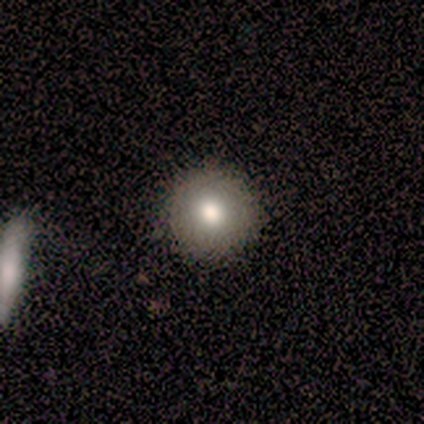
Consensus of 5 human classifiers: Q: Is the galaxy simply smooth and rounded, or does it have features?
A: smooth — 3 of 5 (60%).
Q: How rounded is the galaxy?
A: round — 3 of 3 (100%).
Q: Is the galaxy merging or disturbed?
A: none — 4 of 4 (100%).